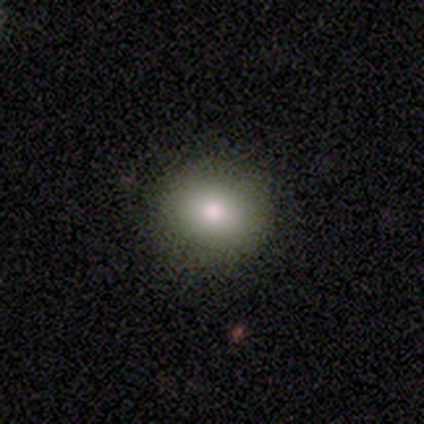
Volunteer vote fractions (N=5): Q: Smooth or featured?
A: smooth (80%); runner-up: star or artifact (20%)
Q: How rounded?
A: round (75%); runner-up: in between (25%)
Q: Merging?
A: none (100%)